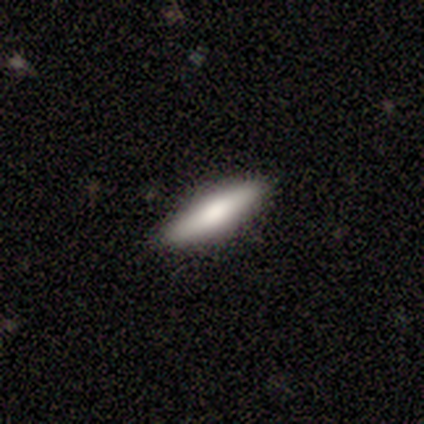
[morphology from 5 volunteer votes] This appears to be a smooth galaxy with no disk features (100%) that is cigar-shaped (100%). Merging: none (100%).